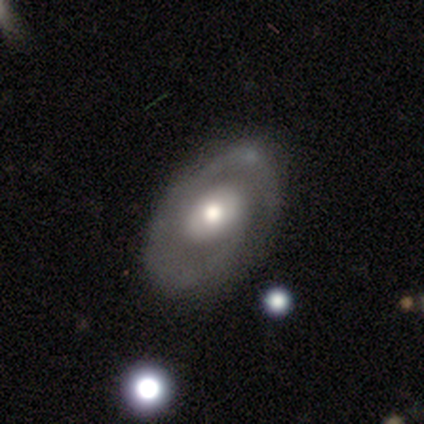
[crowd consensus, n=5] Q: Smooth or featured?
A: featured or disk (100%)
Q: Edge-on disk?
A: no (80%); runner-up: yes (20%)
Q: Bar?
A: no (75%); runner-up: weak (25%)
Q: Spiral arms?
A: yes (100%)
Q: Spiral winding?
A: medium (50%); runner-up: tight (25%)
Q: Spiral arm count?
A: 2 (50%); tied with: can't tell (50%)
Q: Bulge size?
A: moderate (75%); runner-up: large (25%)
Q: Merging?
A: none (80%); runner-up: merger (20%)